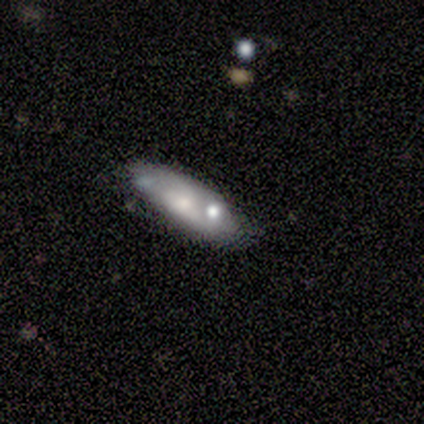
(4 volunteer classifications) Volunteers were most divided on "merging": none: 67%, minor disturbance: 33%, major disturbance: 0%, merger: 0%. More confident: how rounded — in between (100%); smooth or featured — smooth (75%).